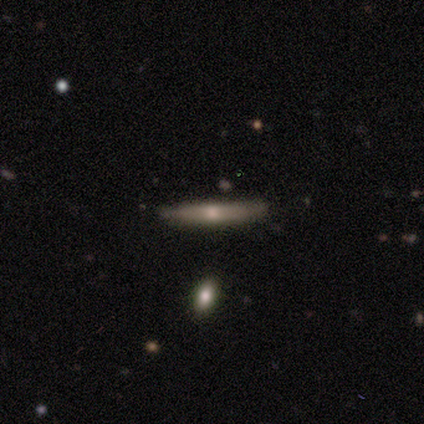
Morphology: type=featured or disk (54%); edge-on=yes (95%); edge-on bulge=rounded (81%); merging=none (79%).